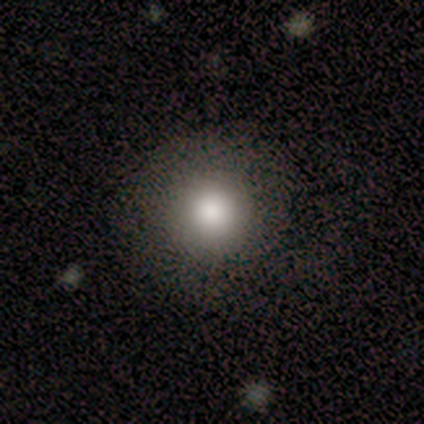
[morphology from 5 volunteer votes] Overall: smooth (80%). How rounded: round (50%; in between 25%). Merging: none (75%).